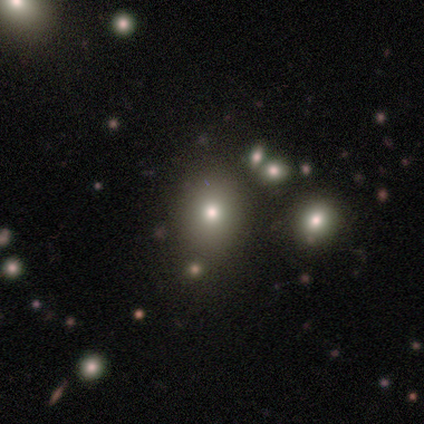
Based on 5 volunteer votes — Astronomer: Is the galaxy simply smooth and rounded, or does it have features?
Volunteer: smooth — 60% (runner-up: star or artifact, 40%).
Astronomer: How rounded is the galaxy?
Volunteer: round — 100%.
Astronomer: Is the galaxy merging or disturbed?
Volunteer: none — 100%.